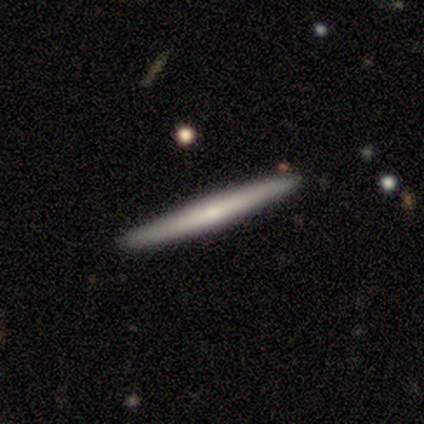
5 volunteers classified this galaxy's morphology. Q: Smooth or featured?
A: smooth (40%); tied with: featured or disk (40%)
Q: How rounded?
A: cigar-shaped (100%)
Q: Merging?
A: none (100%)